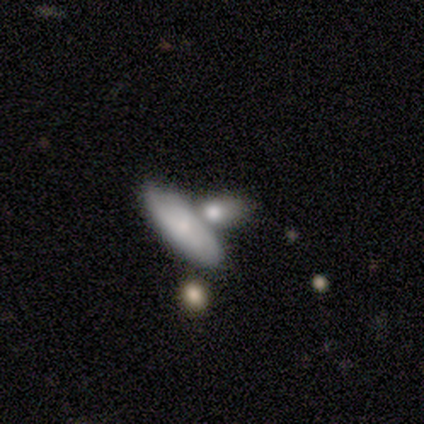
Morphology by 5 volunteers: Smooth or featured? smooth (80%)
How rounded? in between (100%)
Merging? merger (60%)